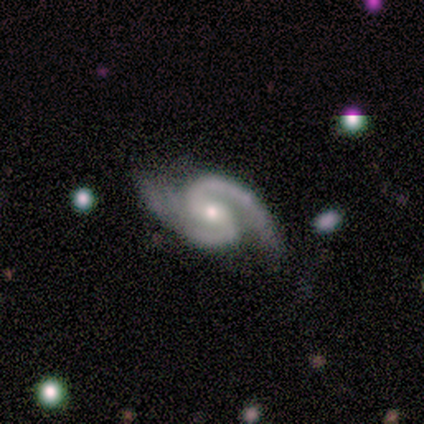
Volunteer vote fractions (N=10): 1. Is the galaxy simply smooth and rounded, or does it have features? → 90% featured or disk, 10% star or artifact, 0% smooth.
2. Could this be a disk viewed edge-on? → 100% no, 0% yes.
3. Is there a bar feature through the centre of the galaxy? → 89% weak, 11% no, 0% strong.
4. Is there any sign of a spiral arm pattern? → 100% yes, 0% no.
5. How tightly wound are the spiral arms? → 56% tight, 44% medium, 0% loose.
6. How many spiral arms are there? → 100% 2, 0% 1, 0% 3, 0% 4, 0% more than 4, 0% can't tell.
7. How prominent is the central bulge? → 56% small, 44% moderate, 0% dominant, 0% large, 0% none.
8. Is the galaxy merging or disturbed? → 89% none, 11% minor disturbance, 0% major disturbance, 0% merger.